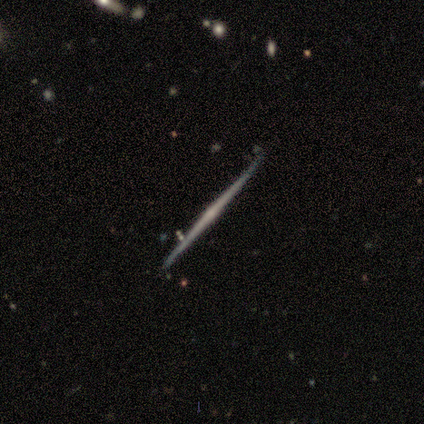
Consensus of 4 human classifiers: Morphology: type=featured or disk (75%); edge-on=yes (100%); edge-on bulge=rounded (67%); merging=none (100%).